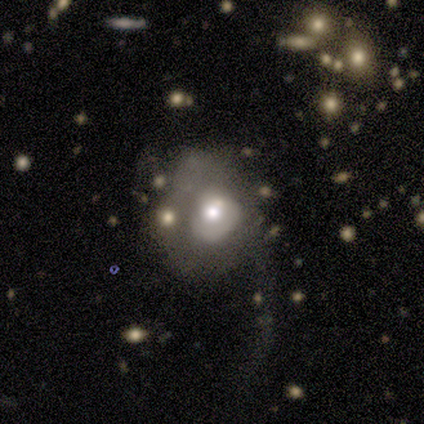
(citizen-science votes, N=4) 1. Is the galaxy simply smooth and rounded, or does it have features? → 50% smooth (tied), 50% featured or disk (tied), 0% star or artifact.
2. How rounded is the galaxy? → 100% round, 0% in between, 0% cigar-shaped.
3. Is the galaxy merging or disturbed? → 50% major disturbance, 25% minor disturbance, 25% merger, 0% none.